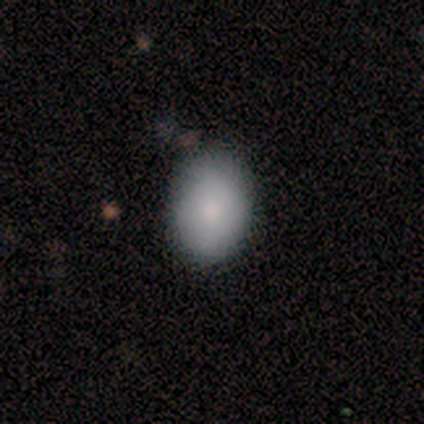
smooth 100%, featured or disk 0%, star or artifact 0%. Down the decision tree: how rounded — round (50%, tied with in between); merging — none (75%).